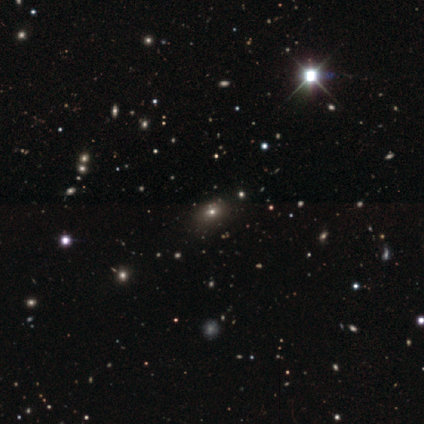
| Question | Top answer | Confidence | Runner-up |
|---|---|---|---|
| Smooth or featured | smooth | 54% | star or artifact (46%) |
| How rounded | round | 57% | cigar-shaped (29%) |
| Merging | none | 86% | minor disturbance (14%) |